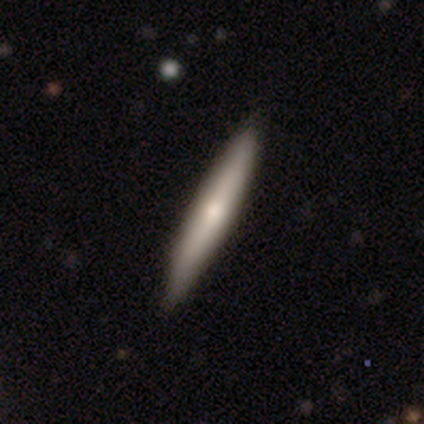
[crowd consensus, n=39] Smooth or featured? 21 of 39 (54%) said smooth. How rounded? 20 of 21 (95%) said cigar-shaped. Merging? 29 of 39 (74%) said none.